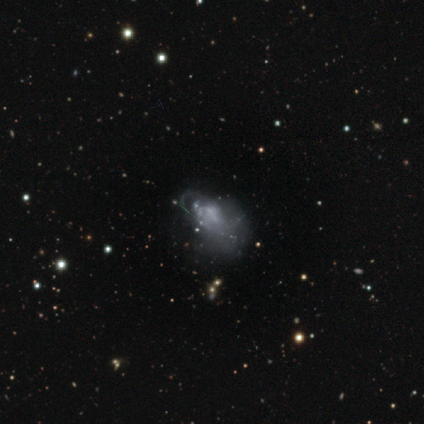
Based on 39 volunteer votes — Smooth or featured: featured or disk — 72% (smooth — 18%)
Edge-on disk: no — 93% (yes — 7%)
Bar: no — 88% (weak — 8%)
Spiral arms: no — 73% (yes — 27%)
Bulge size: none — 62% (small — 23%)
Merging: major disturbance — 49% (none — 23%)